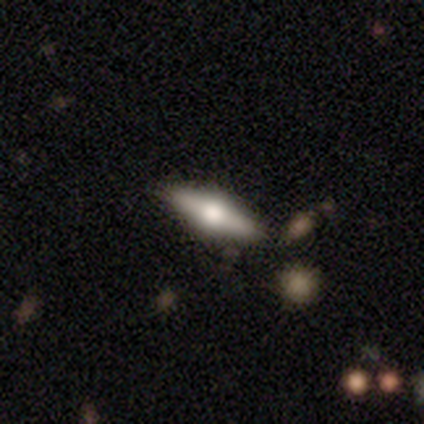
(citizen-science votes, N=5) smooth-or-featured: featured or disk: 60% | smooth: 40% | star or artifact: 0%
  disk-edge-on: yes: 67% | no: 33%
    edge-on-bulge: rounded: 100% | boxy: 0% | none: 0%
  merging: none: 100% | minor disturbance: 0% | major disturbance: 0% | merger: 0%